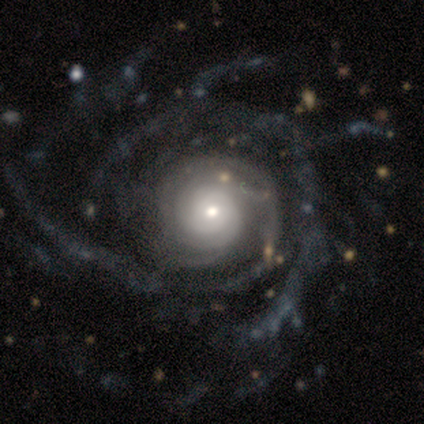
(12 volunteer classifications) Smooth or featured? featured or disk (92%)
Edge-on disk? no (100%)
Bar? no (100%)
Spiral arms? yes (100%)
Spiral winding? tight (45%, tied with medium)
Spiral arm count? can't tell (55%)
Bulge size? small (55%)
Merging? none (75%)